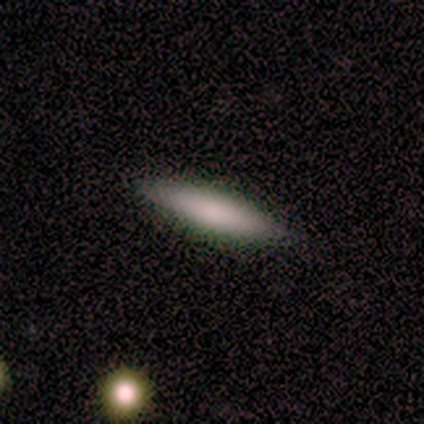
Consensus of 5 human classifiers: Smooth or featured? smooth (100%)
How rounded? cigar-shaped (80%)
Merging? none (100%)